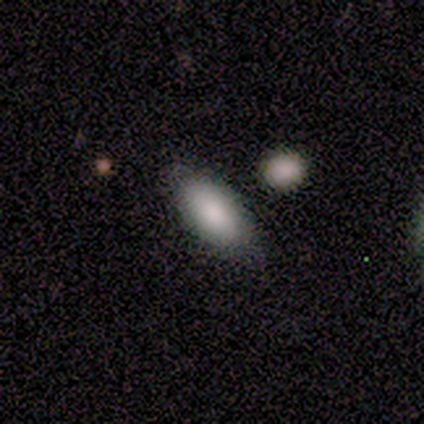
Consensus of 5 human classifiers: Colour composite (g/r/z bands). It shows a smooth galaxy with no disk features (100%) that is in between round and cigar-shaped (80%). Merging: none (100%).